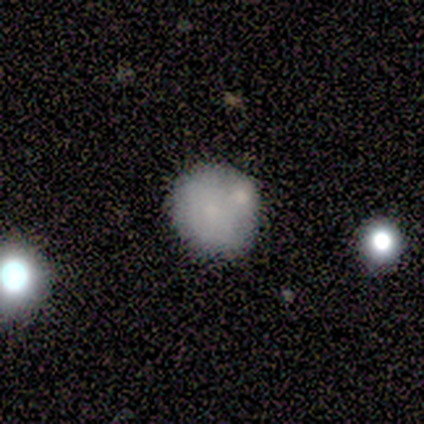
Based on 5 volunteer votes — A smooth galaxy with no disk features (60%) that is round (100%). Merging: none (50%).